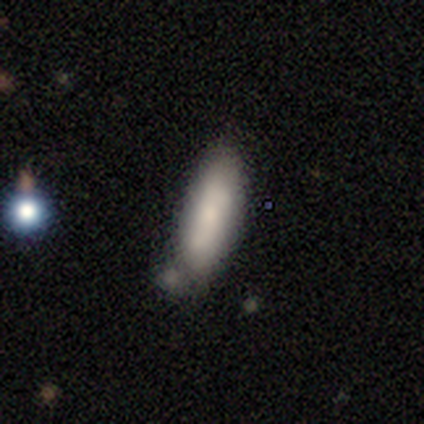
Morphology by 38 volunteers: type=smooth (76%); roundness=in between (52%); merging=none (46%).